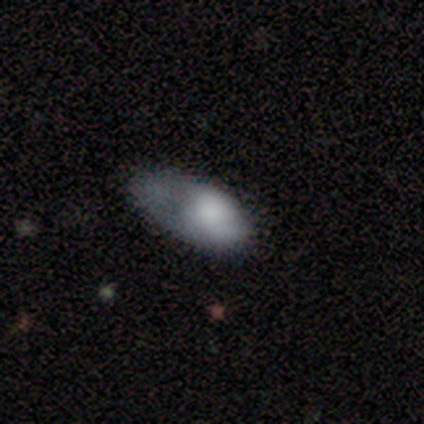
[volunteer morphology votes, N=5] This appears to be a smooth galaxy with no disk features (60%) that is in between round and cigar-shaped (100%). Merging: major disturbance (75%).